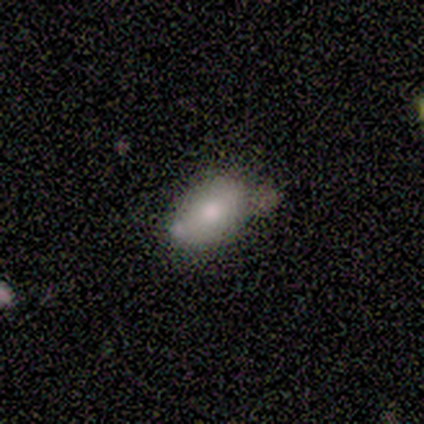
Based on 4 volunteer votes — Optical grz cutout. It shows a smooth galaxy with no disk features (50%) that is in between round and cigar-shaped (100%). Merging: none (33%, tied with minor disturbance and merger).